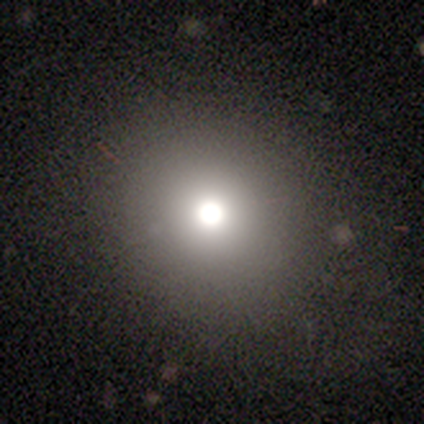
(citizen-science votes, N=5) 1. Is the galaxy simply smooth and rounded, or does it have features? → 100% smooth, 0% featured or disk, 0% star or artifact.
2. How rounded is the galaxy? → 100% round, 0% in between, 0% cigar-shaped.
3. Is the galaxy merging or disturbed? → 80% none, 20% minor disturbance, 0% major disturbance, 0% merger.